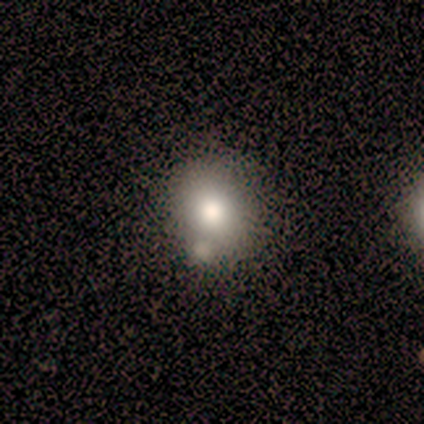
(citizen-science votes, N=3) smooth_or_featured: smooth (p=0.67) [alt: featured or disk p=0.33]
how_rounded: round (p=0.50) [tied with: in between p=0.50]
merging: minor disturbance (p=0.67) [alt: none p=0.33]